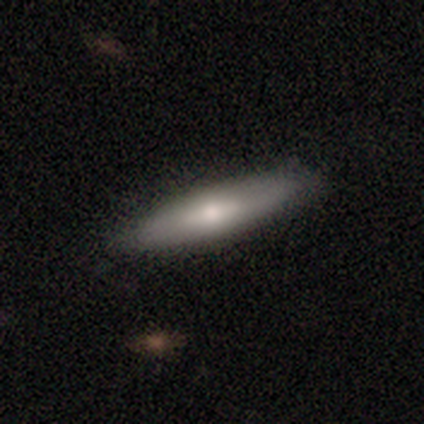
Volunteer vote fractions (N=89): Morphology: type=smooth (55%); roundness=cigar-shaped (71%); merging=none (90%).